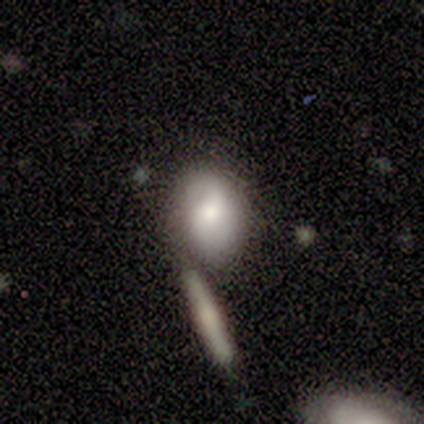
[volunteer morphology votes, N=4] Smooth or featured? smooth (75%)
How rounded? in between (100%)
Merging? none (75%)